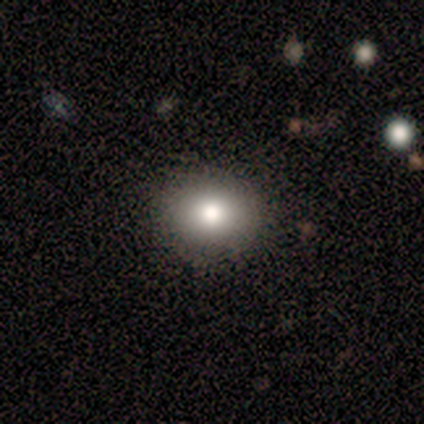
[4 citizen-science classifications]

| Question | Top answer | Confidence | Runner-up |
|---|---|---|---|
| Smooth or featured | smooth | 100% | — |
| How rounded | round | 75% | in between (25%) |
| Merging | none | 100% | — |